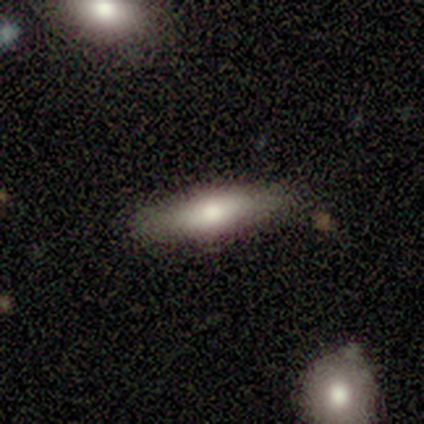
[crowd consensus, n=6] A smooth galaxy with no disk features (50%, tied with featured or disk) that is in between round and cigar-shaped (67%). Merging: none (83%).